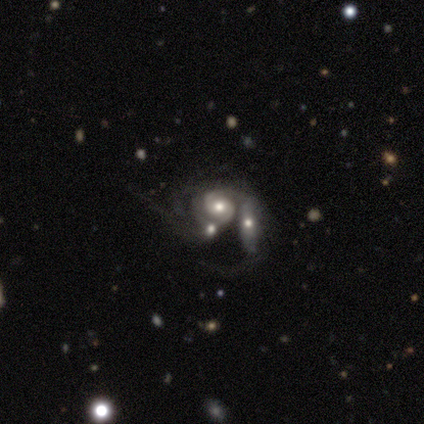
This is likely a featured or disk galaxy (75%). It is clearly not viewed edge-on (100%). Bar: likely no (67%). Spiral arm pattern: clearly yes (100%). Spiral arm count: likely can't tell (67%). Spiral winding: clearly tight (100%). Central bulge: clearly moderate (100%). Merging: marginally none (25%, tied with minor disturbance, major disturbance and merger).